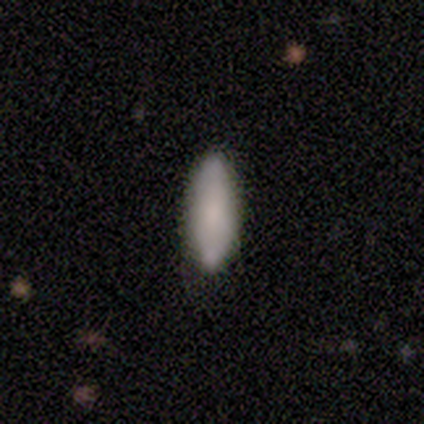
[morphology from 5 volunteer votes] smooth_or_featured: smooth (p=1.00)
how_rounded: cigar-shaped (p=0.60) [alt: in between p=0.40]
merging: none (p=0.60) [alt: minor disturbance p=0.20]